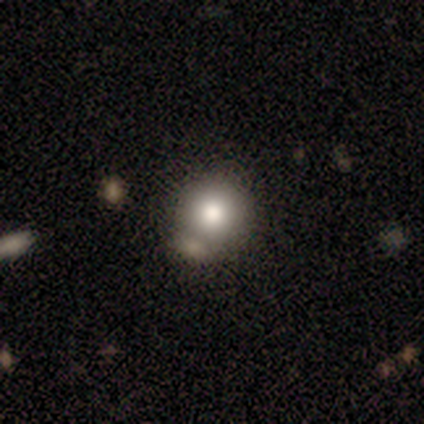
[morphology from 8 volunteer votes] This appears to be a smooth galaxy with no disk features (75%) that is round (83%). Merging: merger (50%).